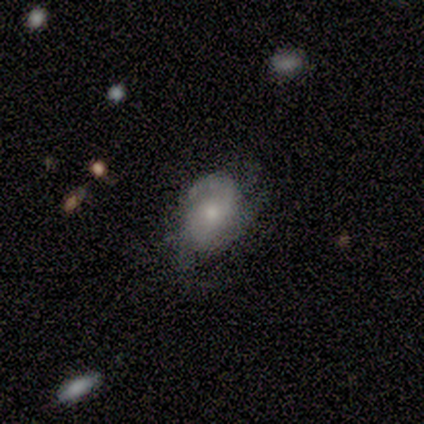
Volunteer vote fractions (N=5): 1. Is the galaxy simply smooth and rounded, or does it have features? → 60% featured or disk, 40% smooth, 0% star or artifact.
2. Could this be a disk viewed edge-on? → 100% no, 0% yes.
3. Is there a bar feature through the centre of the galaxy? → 67% weak, 33% no, 0% strong.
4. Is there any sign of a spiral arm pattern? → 100% yes, 0% no.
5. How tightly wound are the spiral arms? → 67% medium, 33% loose, 0% tight.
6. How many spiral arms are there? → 67% 2, 33% 3, 0% 1, 0% 4, 0% more than 4, 0% can't tell.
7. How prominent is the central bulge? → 67% small, 33% moderate, 0% dominant, 0% large, 0% none.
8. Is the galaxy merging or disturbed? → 60% minor disturbance, 40% none, 0% major disturbance, 0% merger.